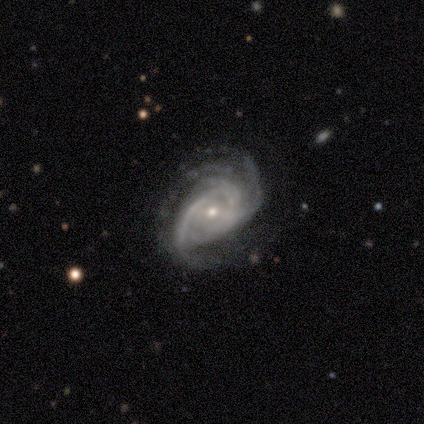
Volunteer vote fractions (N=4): smooth-or-featured: featured or disk: 100% | smooth: 0% | star or artifact: 0%
  disk-edge-on: no: 100% | yes: 0%
    bar: no: 100% | strong: 0% | weak: 0%
    has-spiral-arms: yes: 100% | no: 0%
      spiral-winding: medium: 75% | tight: 25% | loose: 0%
      spiral-arm-count: 4: 50% | 2: 25% | can't tell: 25% | 1: 0% | 3: 0% | more than 4: 0%
    bulge-size: moderate: 50% (tied) | small: 50% (tied) | dominant: 0% | large: 0% | none: 0%
  merging: none: 75% | major disturbance: 25% | minor disturbance: 0% | merger: 0%